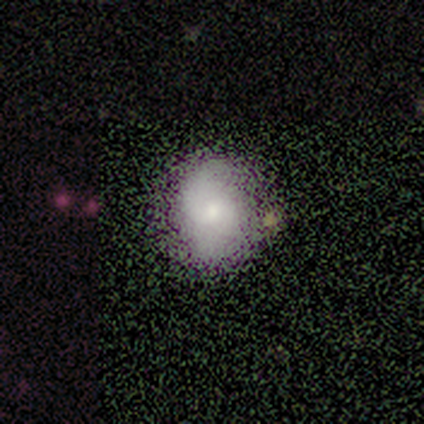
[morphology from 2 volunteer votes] Overall: smooth (50%, tied with featured or disk). How rounded: in between (100%). Merging: none (100%).